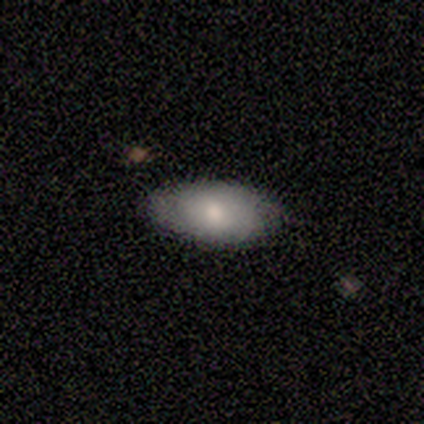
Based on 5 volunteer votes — A smooth galaxy with no disk features (80%) that is in between round and cigar-shaped (100%). Merging: none (75%).